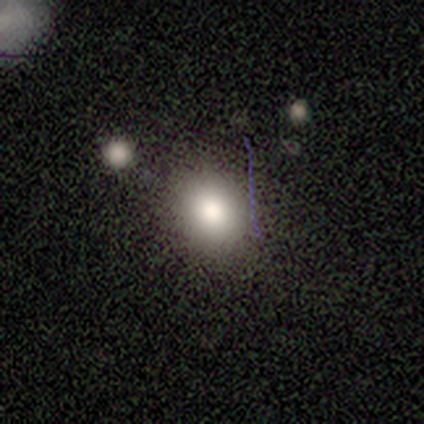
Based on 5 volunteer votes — smooth-or-featured: smooth: 60% | star or artifact: 40% | featured or disk: 0%
  how-rounded: in between: 100% | round: 0% | cigar-shaped: 0%
  merging: none: 100% | minor disturbance: 0% | major disturbance: 0% | merger: 0%